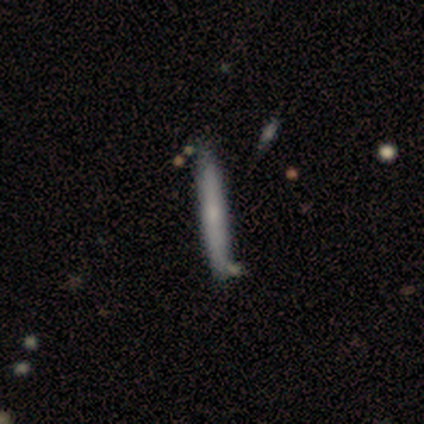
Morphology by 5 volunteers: Smooth or featured: smooth — 80% (featured or disk — 20%)
How rounded: cigar-shaped — 100%
Merging: none — 100%